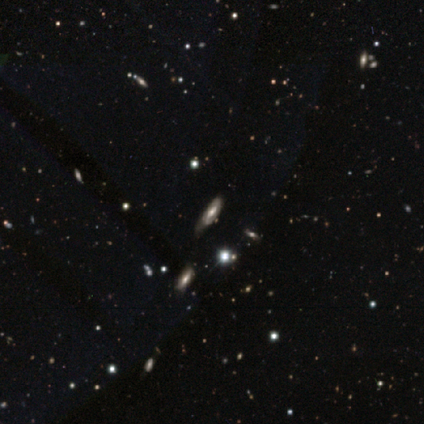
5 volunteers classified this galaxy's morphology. smooth_or_featured: star or artifact (p=0.60) [alt: featured or disk p=0.40]